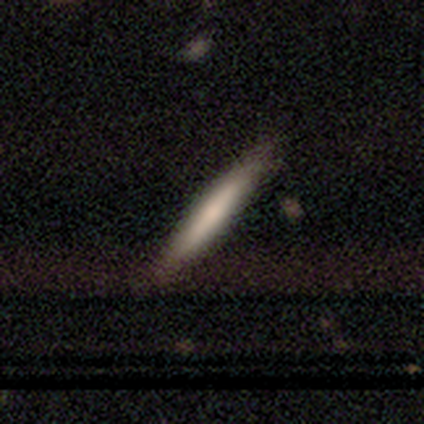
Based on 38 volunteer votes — This is likely a smooth galaxy (61%). How rounded: clearly cigar-shaped (100%). Merging: likely none (66%).